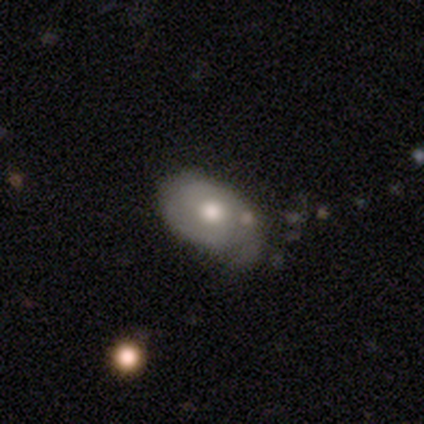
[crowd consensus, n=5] This appears to be a featured or disk galaxy (100%) with no bar (80%), no spiral arms (60%) and a moderate central bulge (80%). Merging: minor disturbance (60%).